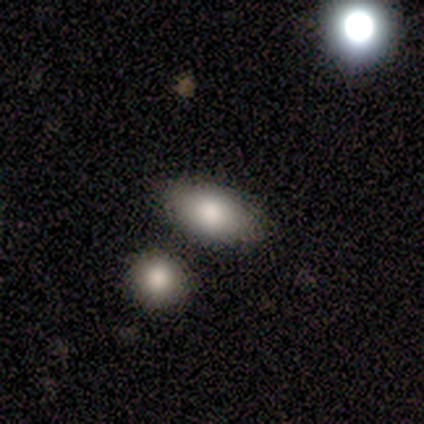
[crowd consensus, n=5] This appears to be a smooth galaxy with no disk features (80%) that is in between round and cigar-shaped (100%). Merging: none (100%).